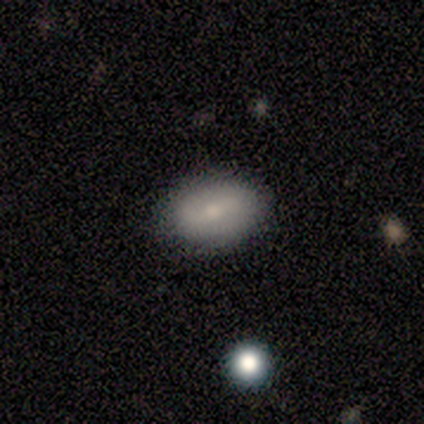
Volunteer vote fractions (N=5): Overall: smooth (60%; featured or disk 20%). How rounded: in between (100%). Merging: none (75%).